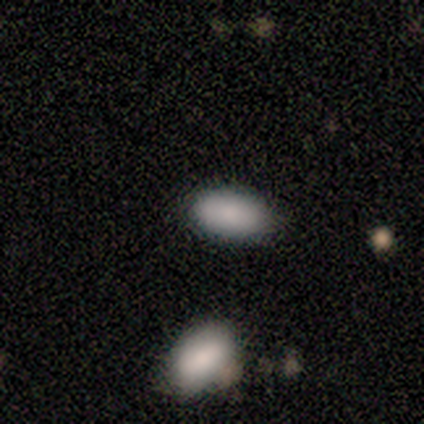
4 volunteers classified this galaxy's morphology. This is clearly a smooth galaxy (100%). How rounded: clearly in between (100%). Merging: clearly none (100%).